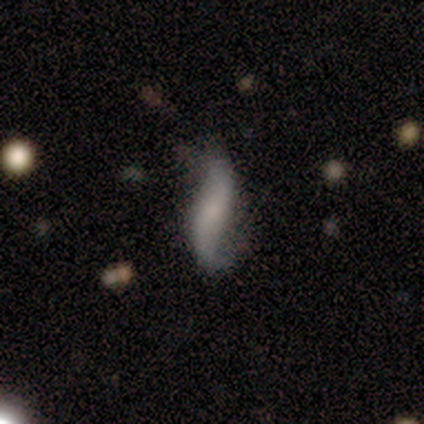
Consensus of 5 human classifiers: Smooth or featured: featured or disk — 80% (smooth — 20%)
Edge-on disk: no — 100%
Bar: weak — 50% (strong — 25%)
Spiral arms: yes — 100%
Spiral winding: loose — 75% (medium — 25%)
Spiral arm count: 2 — 100%
Bulge size: moderate — 50% (small — 25%)
Merging: none — 60% (minor disturbance — 40%)